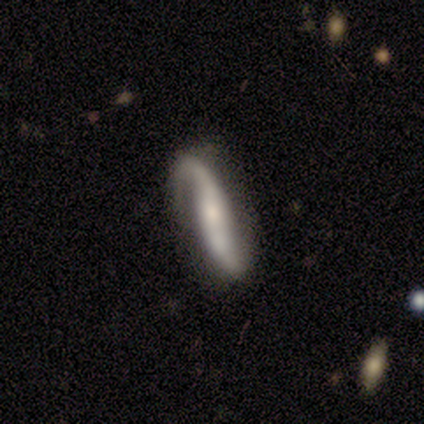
Overall: smooth (60%; featured or disk 40%). How rounded: cigar-shaped (100%). Merging: none (40%, tied with minor disturbance).